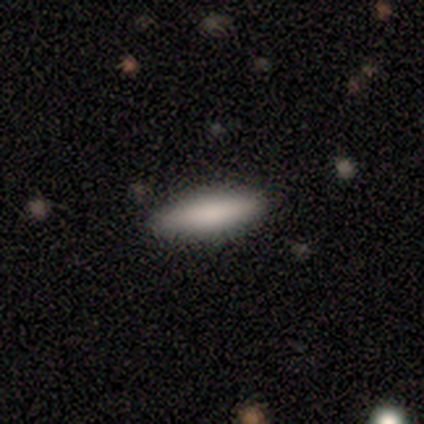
smooth-or-featured: smooth: 67% | featured or disk: 33% | star or artifact: 0%
  how-rounded: cigar-shaped: 100% | round: 0% | in between: 0%
  merging: none: 67% | minor disturbance: 33% | major disturbance: 0% | merger: 0%